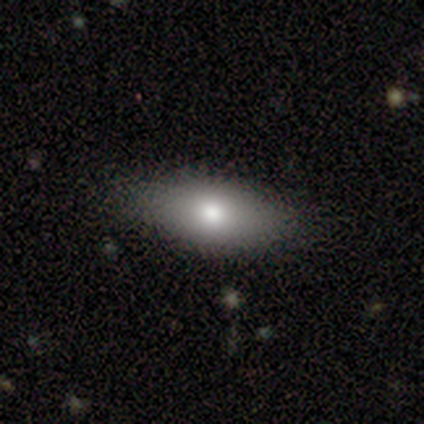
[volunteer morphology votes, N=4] Smooth or featured?
  - smooth: 100% *
  - featured or disk: 0%
  - star or artifact: 0%
How rounded?
  - in between: 75% *
  - cigar-shaped: 25%
  - round: 0%
Merging?
  - none: 100% *
  - minor disturbance: 0%
  - major disturbance: 0%
  - merger: 0%